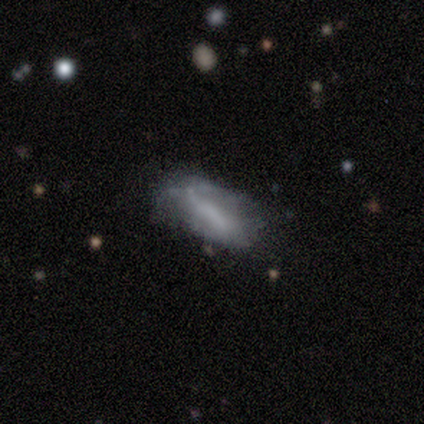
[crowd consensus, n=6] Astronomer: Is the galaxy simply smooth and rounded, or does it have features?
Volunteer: smooth — 50%, tied with featured or disk at 50%.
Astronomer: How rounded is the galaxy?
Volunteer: in between — 100%.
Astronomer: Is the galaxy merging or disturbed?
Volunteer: minor disturbance — 50% (runner-up: none, 33%).